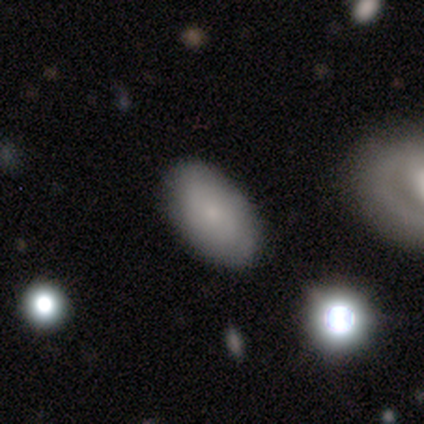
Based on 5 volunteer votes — Smooth or featured? smooth (60%)
How rounded? in between (100%)
Merging? none (80%)